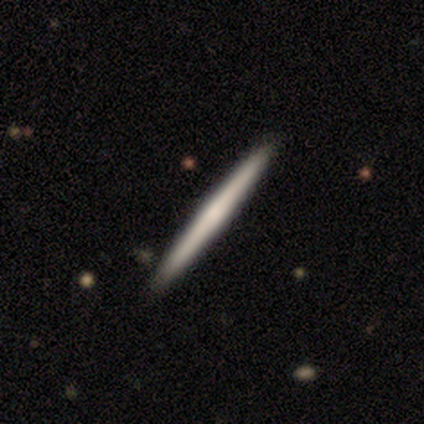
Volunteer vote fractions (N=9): A smooth galaxy with no disk features (67%) that is cigar-shaped (100%). Merging: none (100%).